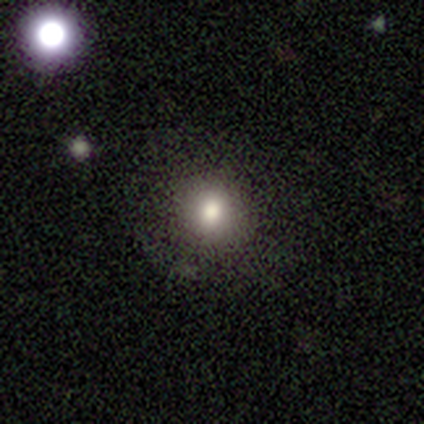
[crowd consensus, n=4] Smooth or featured? smooth (75%)
How rounded? round (100%)
Merging? none (100%)